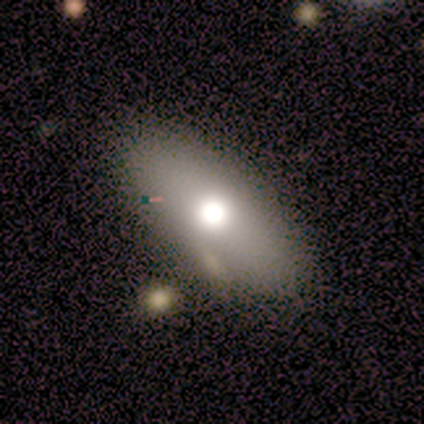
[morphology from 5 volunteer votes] Smooth or featured? smooth (60%)
How rounded? in between (100%)
Merging? none (50%, tied with merger)